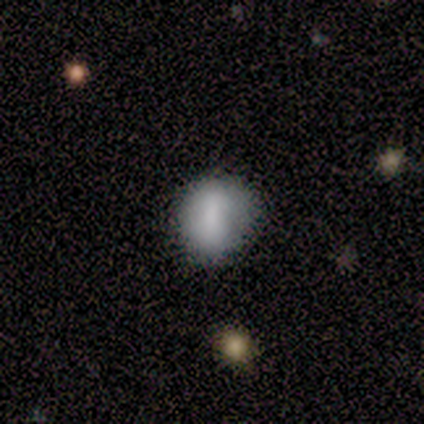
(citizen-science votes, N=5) This appears to be a smooth galaxy with no disk features (60%) that is round (100%). Merging: none (100%).